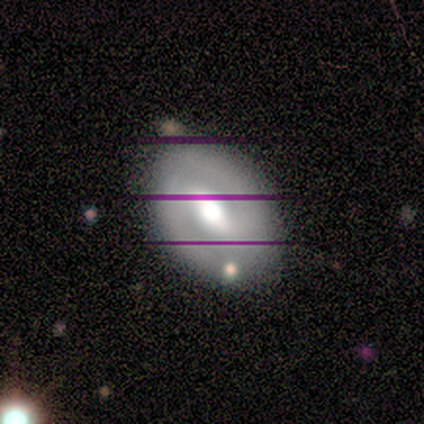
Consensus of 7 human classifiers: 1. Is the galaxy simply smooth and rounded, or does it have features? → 100% featured or disk, 0% smooth, 0% star or artifact.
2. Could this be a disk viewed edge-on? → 100% no, 0% yes.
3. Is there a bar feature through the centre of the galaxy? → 71% weak, 14% strong, 14% no.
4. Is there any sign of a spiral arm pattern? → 71% yes, 29% no.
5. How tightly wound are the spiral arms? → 60% medium, 20% tight, 20% loose.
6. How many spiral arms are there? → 80% 2, 20% can't tell, 0% 1, 0% 3, 0% 4, 0% more than 4.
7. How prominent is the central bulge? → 57% moderate, 14% dominant, 14% large, 14% small, 0% none.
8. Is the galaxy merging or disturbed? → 86% none, 14% minor disturbance, 0% major disturbance, 0% merger.